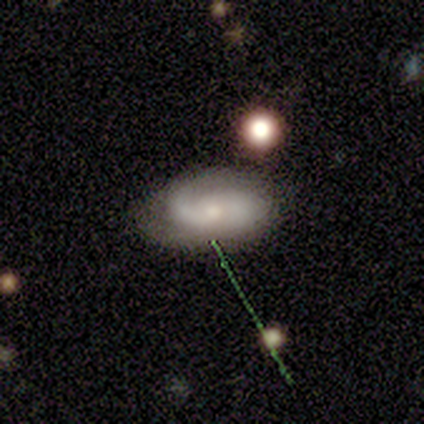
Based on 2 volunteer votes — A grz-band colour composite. It shows a featured or disk galaxy (50%, tied with star or artifact) with no bar (100%), medium (100%) spiral arms (100%) and a small central bulge (100%). Merging: none (100%).